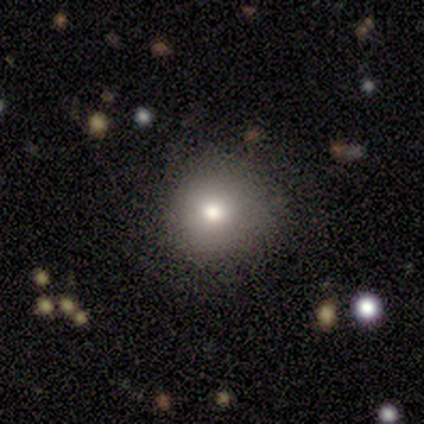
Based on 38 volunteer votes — This is clearly a smooth galaxy (82%). How rounded: clearly round (94%). Merging: likely none (76%).